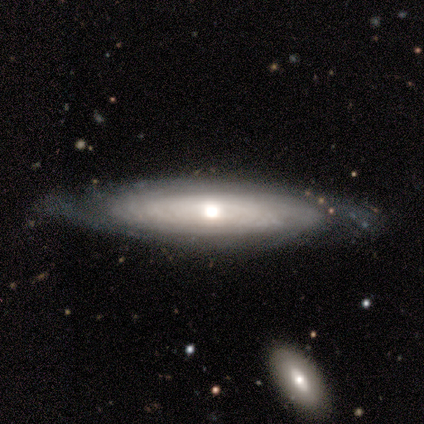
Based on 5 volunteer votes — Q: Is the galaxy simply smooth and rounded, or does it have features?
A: featured or disk — 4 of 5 (80%).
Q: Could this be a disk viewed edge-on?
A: no — 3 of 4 (75%).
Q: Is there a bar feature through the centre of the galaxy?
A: no — 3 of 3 (100%).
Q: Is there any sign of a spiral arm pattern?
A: yes — 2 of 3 (67%).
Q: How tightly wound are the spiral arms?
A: tight — 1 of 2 (50%, tied with medium).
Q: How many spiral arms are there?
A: can't tell — 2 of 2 (100%).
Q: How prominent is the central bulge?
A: moderate — 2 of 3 (67%).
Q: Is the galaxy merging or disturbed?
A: none — 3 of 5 (60%).